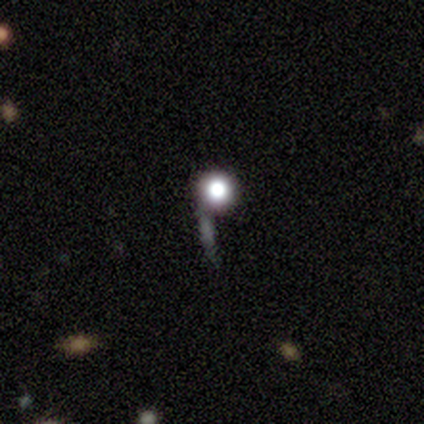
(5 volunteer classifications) Smooth or featured? smooth (40%, tied with star or artifact)
How rounded? round (50%, tied with cigar-shaped)
Merging? none (67%)